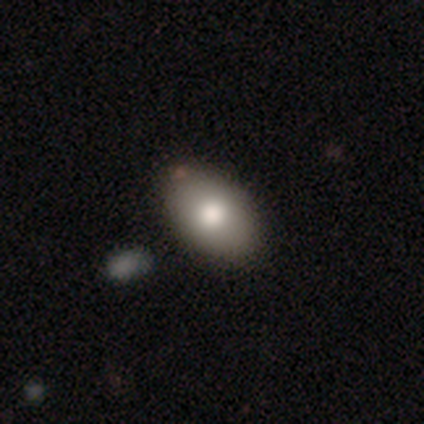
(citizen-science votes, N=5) A smooth galaxy with no disk features (80%) that is in between round and cigar-shaped (100%).

Vote fractions:
- Smooth or featured? smooth: 80% / star or artifact: 20% / featured or disk: 0%
- How rounded? in between: 100% / round: 0% / cigar-shaped: 0%
- Merging? none: 75% / minor disturbance: 25% / major disturbance: 0% / merger: 0%